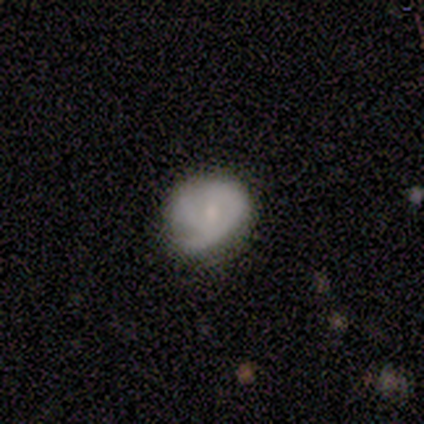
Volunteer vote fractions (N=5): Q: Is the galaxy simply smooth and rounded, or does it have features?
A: featured or disk — 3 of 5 (60%).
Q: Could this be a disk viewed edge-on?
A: no — 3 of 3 (100%).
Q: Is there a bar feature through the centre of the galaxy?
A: no — 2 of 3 (67%).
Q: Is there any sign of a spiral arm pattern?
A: yes — 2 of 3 (67%).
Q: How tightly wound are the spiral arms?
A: tight — 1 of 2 (50%, tied with medium).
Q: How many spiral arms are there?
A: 2 — 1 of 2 (50%, tied with can't tell).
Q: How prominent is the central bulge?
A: small — 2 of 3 (67%).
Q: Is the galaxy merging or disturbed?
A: none — 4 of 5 (80%).